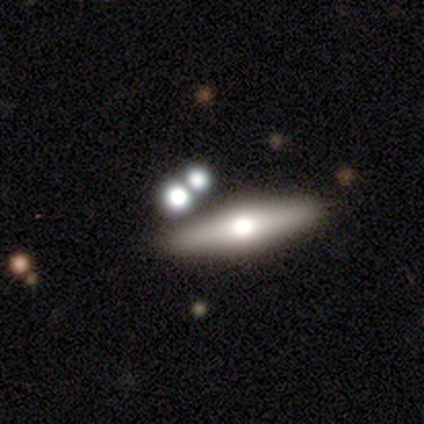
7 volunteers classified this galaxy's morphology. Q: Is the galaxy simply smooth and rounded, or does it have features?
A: smooth — 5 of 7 (71%).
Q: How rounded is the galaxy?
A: cigar-shaped — 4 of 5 (80%).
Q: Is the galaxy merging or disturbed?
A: none — 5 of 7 (71%).